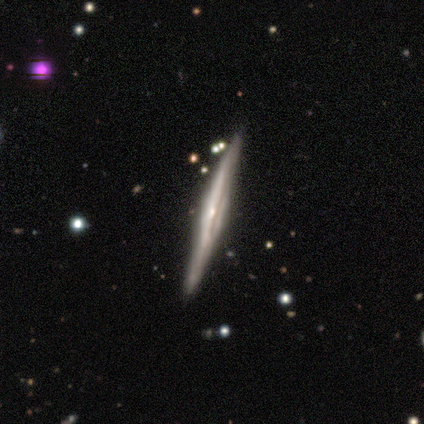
This is clearly a featured or disk galaxy (88%). It is clearly viewed edge-on (94%). Edge-on bulge: likely rounded (61%). Merging: clearly none (92%).